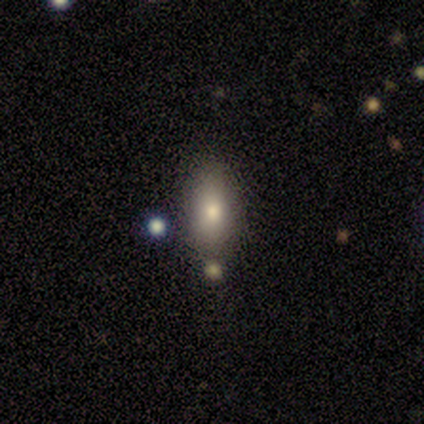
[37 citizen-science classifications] smooth 62%, star or artifact 30%, featured or disk 8%. Down the decision tree: how rounded — in between (74%); merging — none (77%).